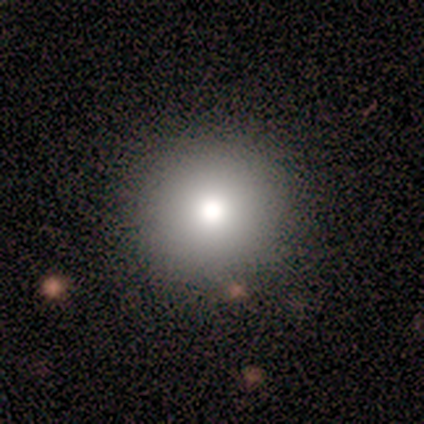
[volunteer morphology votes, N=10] Volunteers were most divided on "smooth or featured": smooth: 50%, star or artifact: 40%, featured or disk: 10%. More confident: how rounded — round (100%); merging — none (100%).